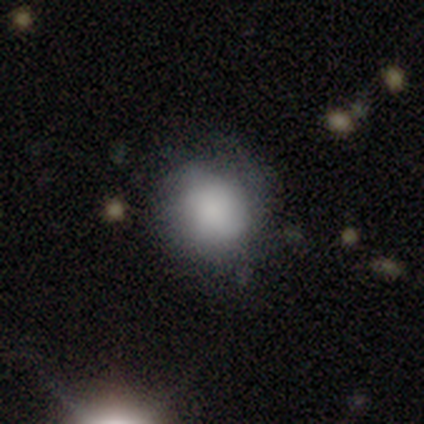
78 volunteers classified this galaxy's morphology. type=smooth (82%); roundness=round (78%); merging=none (32%).